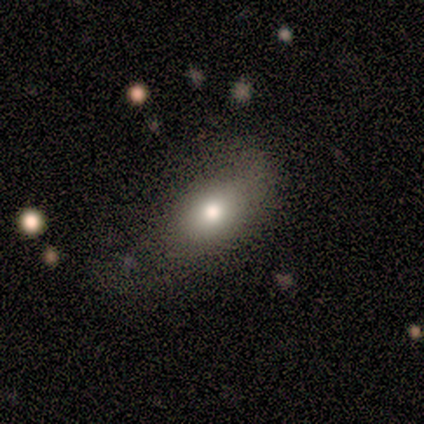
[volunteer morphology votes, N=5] A smooth galaxy with no disk features (80%) that is round (75%).

Vote fractions:
- Smooth or featured? smooth: 80% / featured or disk: 20% / star or artifact: 0%
- How rounded? round: 75% / in between: 25% / cigar-shaped: 0%
- Merging? none: 60% / major disturbance: 40% / minor disturbance: 0% / merger: 0%